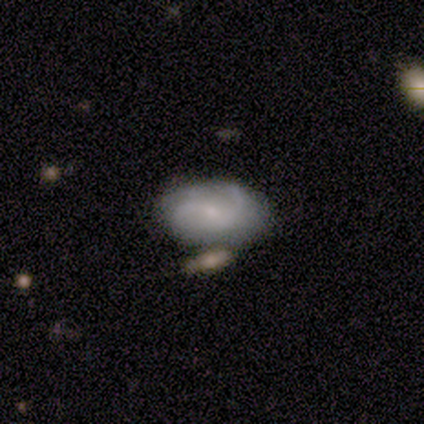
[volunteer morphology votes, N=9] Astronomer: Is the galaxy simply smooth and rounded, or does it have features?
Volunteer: featured or disk — 67%.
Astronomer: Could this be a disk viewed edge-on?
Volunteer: no — 100%.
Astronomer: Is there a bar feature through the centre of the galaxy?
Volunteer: no — 67%.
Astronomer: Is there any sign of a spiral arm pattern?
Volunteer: yes — 83%.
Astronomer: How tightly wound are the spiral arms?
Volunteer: loose — 80%.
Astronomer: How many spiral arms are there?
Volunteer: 2 — 60%.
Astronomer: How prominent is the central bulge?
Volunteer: small — 67%.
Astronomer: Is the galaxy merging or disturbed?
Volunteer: none — 89%.